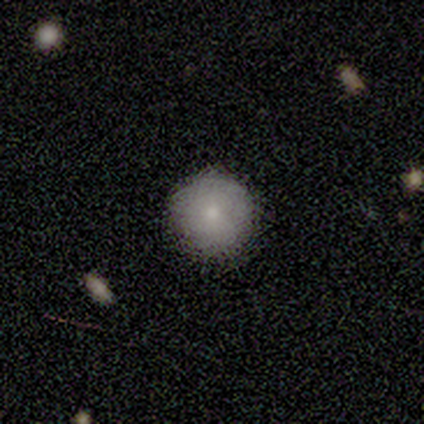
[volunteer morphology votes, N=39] Overall: smooth (85%). How rounded: round (100%). Merging: none (92%).